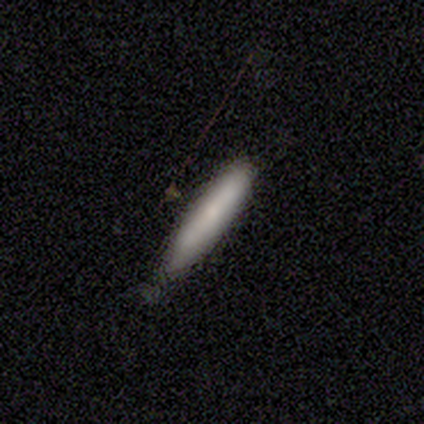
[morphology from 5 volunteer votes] This appears to be a smooth galaxy with no disk features (80%) that is cigar-shaped (75%). Merging: none (60%).